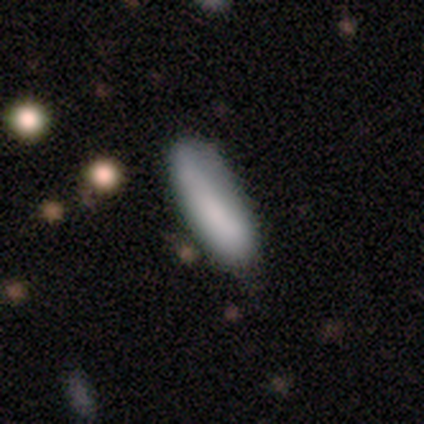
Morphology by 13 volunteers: Smooth or featured?
  - smooth: 85% *
  - featured or disk: 15%
  - star or artifact: 0%
How rounded?
  - cigar-shaped: 64% *
  - in between: 36%
  - round: 0%
Merging?
  - none: 69% *
  - minor disturbance: 23%
  - major disturbance: 8%
  - merger: 0%